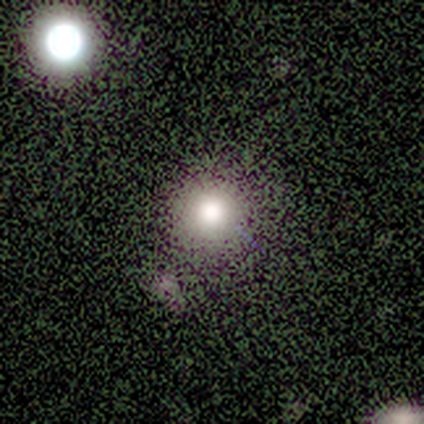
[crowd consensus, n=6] smooth-or-featured: smooth: 67% | featured or disk: 17% | star or artifact: 17%
  how-rounded: round: 100% | in between: 0% | cigar-shaped: 0%
  merging: none: 100% | minor disturbance: 0% | major disturbance: 0% | merger: 0%